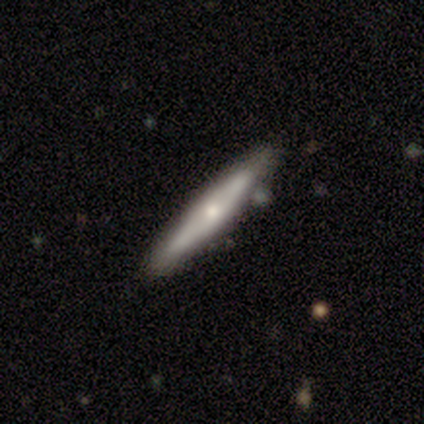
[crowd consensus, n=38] Morphology: type=featured or disk (53%); edge-on=yes (80%); edge-on bulge=rounded (75%); merging=none (83%).